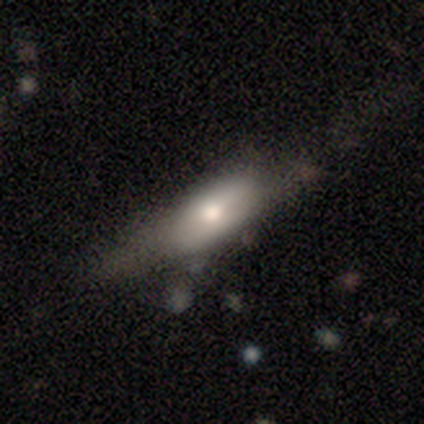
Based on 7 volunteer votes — smooth_or_featured: smooth (p=0.71) [alt: featured or disk p=0.29]
how_rounded: in between (p=0.80) [alt: cigar-shaped p=0.20]
merging: none (p=0.57) [alt: major disturbance p=0.29]